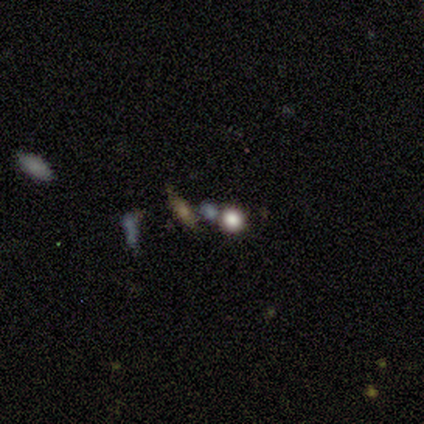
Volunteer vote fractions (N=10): Q: Smooth or featured?
A: smooth (60%); runner-up: star or artifact (30%)
Q: How rounded?
A: round (83%); runner-up: in between (17%)
Q: Merging?
A: none (71%); runner-up: merger (29%)